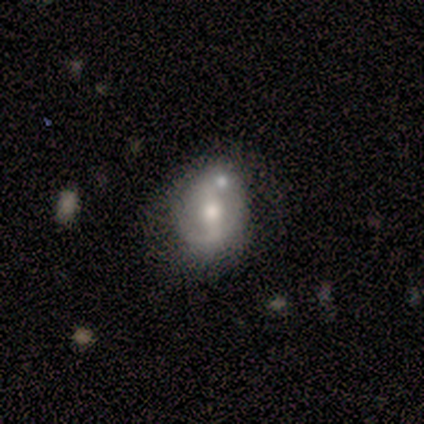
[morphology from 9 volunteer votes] Smooth or featured?
  - smooth: 44% * (tied)
  - featured or disk: 44% * (tied)
  - star or artifact: 11%
How rounded?
  - in between: 75% *
  - round: 25%
  - cigar-shaped: 0%
Merging?
  - none: 50% *
  - merger: 25%
  - minor disturbance: 12%
  - major disturbance: 12%